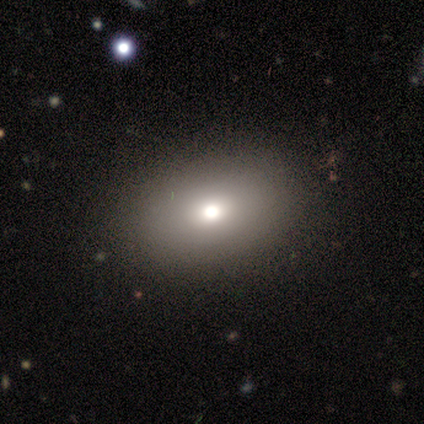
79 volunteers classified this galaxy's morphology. Q: Smooth or featured?
A: smooth (77%); runner-up: featured or disk (15%)
Q: How rounded?
A: in between (69%); runner-up: round (30%)
Q: Merging?
A: none (81%); runner-up: minor disturbance (5%)